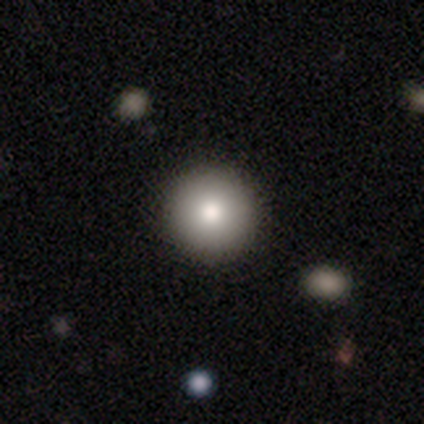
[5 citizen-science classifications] Overall: smooth (80%). How rounded: round (100%). Merging: none (60%; minor disturbance 40%).